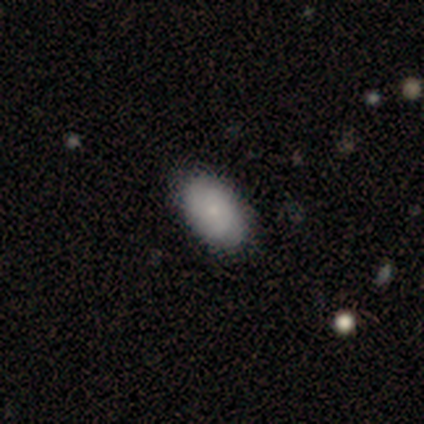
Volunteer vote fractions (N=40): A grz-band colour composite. It shows a smooth galaxy with no disk features (62%) that is in between round and cigar-shaped (96%). Merging: none (82%).